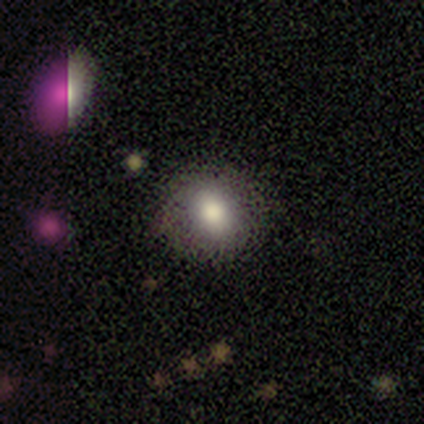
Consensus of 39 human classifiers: Smooth or featured? 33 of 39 (85%) said smooth. How rounded? 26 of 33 (79%) said round. Merging? 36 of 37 (97%) said none.